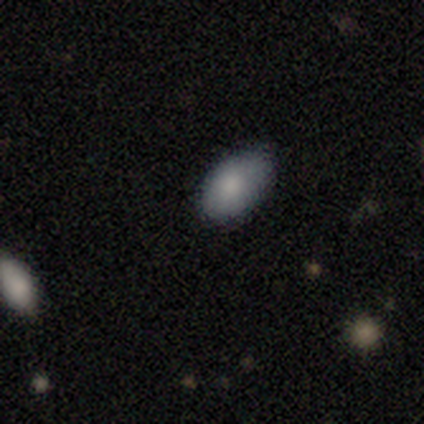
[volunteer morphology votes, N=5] Smooth or featured? 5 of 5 (100%) said smooth. How rounded? 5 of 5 (100%) said in between. Merging? 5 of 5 (100%) said none.